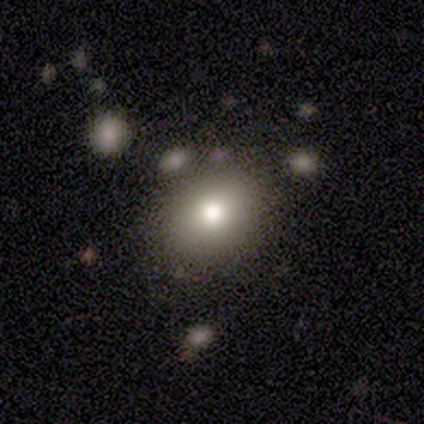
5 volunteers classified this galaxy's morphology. Volunteers were most divided on "merging" (2-way tie): none: 40%, merger: 40%, major disturbance: 20%, minor disturbance: 0%. More confident: smooth or featured — smooth (80%); how rounded — round (75%).